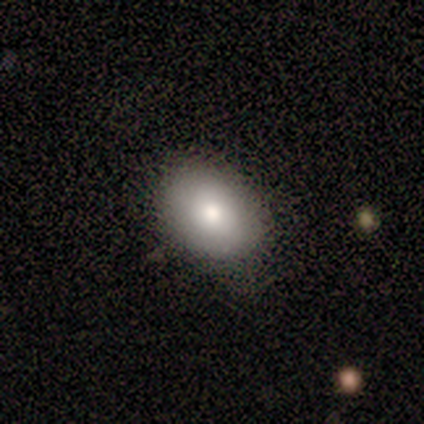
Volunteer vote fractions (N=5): smooth 80%, star or artifact 20%, featured or disk 0%. Down the decision tree: how rounded — in between (75%); merging — none (75%).